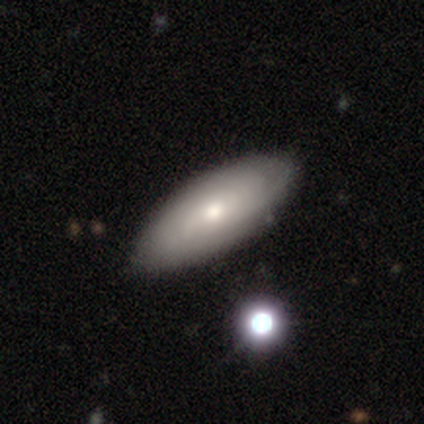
smooth_or_featured: smooth (p=0.54) [alt: featured or disk p=0.44]
how_rounded: in between (p=0.86) [alt: cigar-shaped p=0.10]
merging: none (p=0.55) [alt: merger p=0.13]